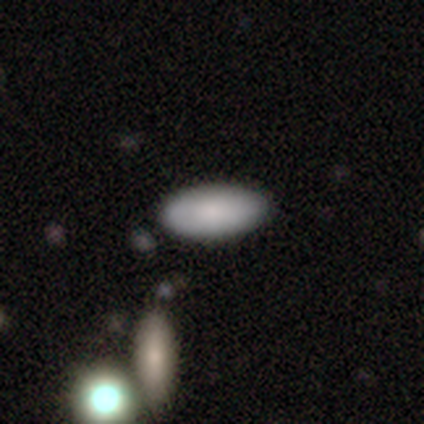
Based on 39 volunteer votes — A smooth galaxy with no disk features (90%) that is in between round and cigar-shaped (94%).

Vote fractions:
- Smooth or featured? smooth: 90% / featured or disk: 5% / star or artifact: 5%
- How rounded? in between: 94% / round: 3% / cigar-shaped: 3%
- Merging? none: 89% / minor disturbance: 5% / major disturbance: 3% / merger: 3%